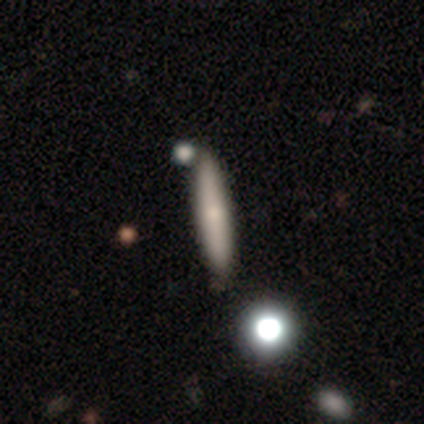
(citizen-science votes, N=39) This is likely a smooth galaxy (64%). How rounded: clearly cigar-shaped (84%). Merging: likely none (62%).